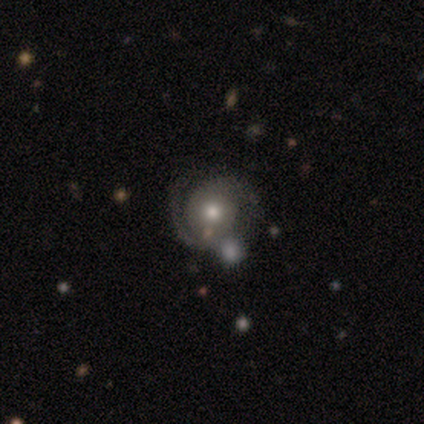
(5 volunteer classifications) featured or disk 80%, smooth 20%, star or artifact 0%. Down the decision tree: edge-on disk — no (100%); bar — no (75%); spiral arms — yes (100%); spiral arm count — 2 (100%); spiral winding — medium (50%); bulge size — small (50%); merging — none (80%).